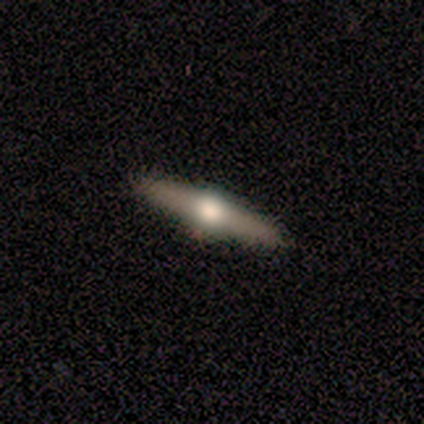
This is clearly a featured or disk galaxy (80%). It is clearly viewed edge-on (100%). Edge-on bulge: clearly rounded (100%). Merging: clearly none (100%).